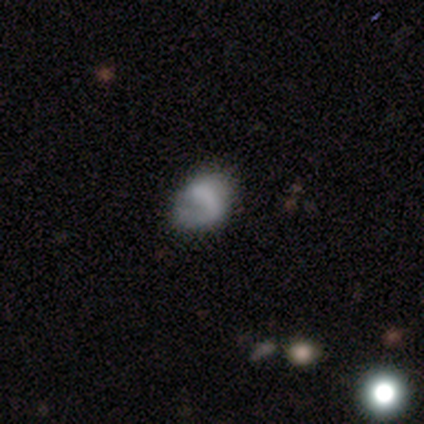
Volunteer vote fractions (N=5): Smooth or featured: smooth — 40% (tied with featured or disk — 40%)
How rounded: round — 50% (tied with in between — 50%)
Merging: none — 50% (minor disturbance — 25%)